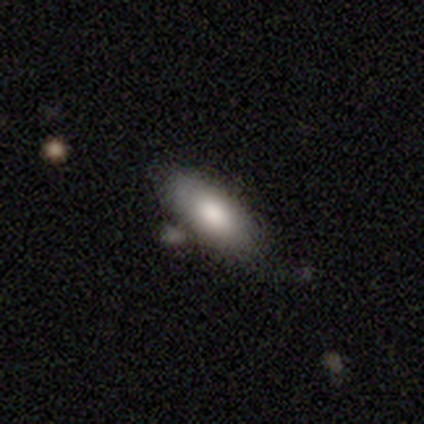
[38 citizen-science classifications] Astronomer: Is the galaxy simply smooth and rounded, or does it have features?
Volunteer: smooth — 82%.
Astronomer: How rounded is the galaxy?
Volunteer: in between — 77%.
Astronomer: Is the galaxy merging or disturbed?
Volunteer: none — 80%.